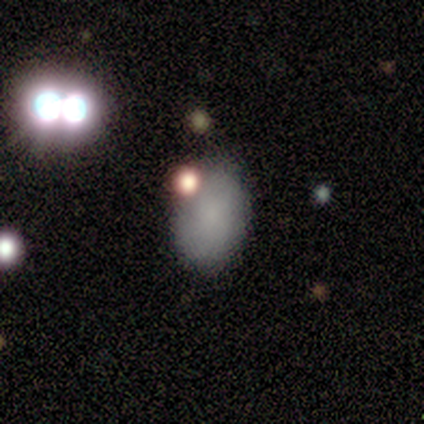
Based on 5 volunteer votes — smooth 80%, featured or disk 20%, star or artifact 0%. Down the decision tree: how rounded — in between (100%); merging — none (60%).